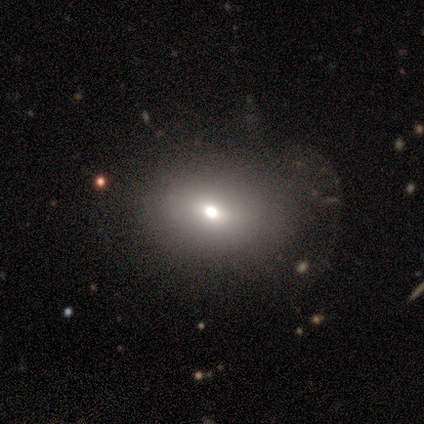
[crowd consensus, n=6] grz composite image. It shows a smooth galaxy with no disk features (67%) that is in between round and cigar-shaped (100%). Merging: none (40%, tied with major disturbance).